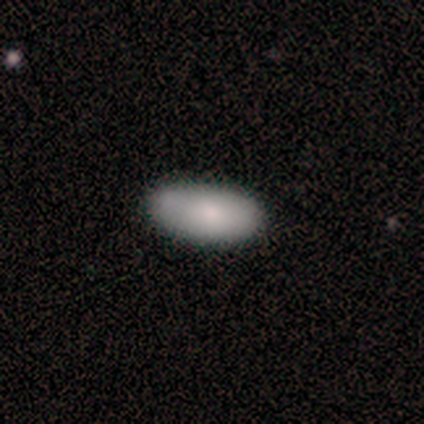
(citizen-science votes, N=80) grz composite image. It shows a smooth galaxy with no disk features (86%) that is in between round and cigar-shaped (97%). Merging: none (43%).